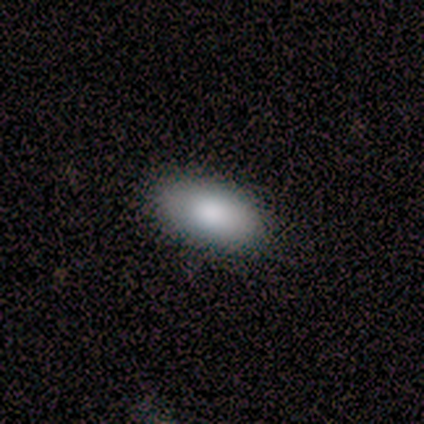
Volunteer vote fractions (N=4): Overall: smooth (100%). How rounded: in between (100%). Merging: none (100%).